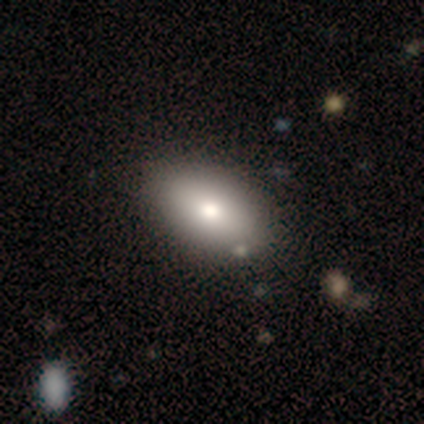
This is likely a smooth galaxy (68%). How rounded: clearly in between (96%). Merging: likely none (63%).